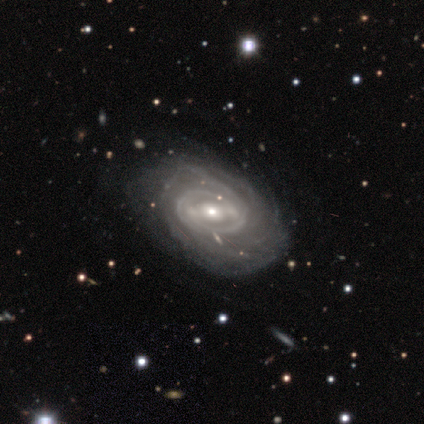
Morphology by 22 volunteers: Smooth or featured?
  - featured or disk: 73% *
  - smooth: 27%
  - star or artifact: 0%
Edge-on disk?
  - no: 100% *
  - yes: 0%
Bar?
  - strong: 44% * (tied)
  - weak: 44% * (tied)
  - no: 12%
Spiral arms?
  - yes: 100% *
  - no: 0%
Spiral winding?
  - tight: 81% *
  - medium: 19%
  - loose: 0%
Spiral arm count?
  - can't tell: 56% *
  - more than 4: 19%
  - 2: 12%
  - 4: 12%
  - 1: 0%
  - 3: 0%
Bulge size?
  - moderate: 56% *
  - small: 38%
  - large: 6%
  - dominant: 0%
  - none: 0%
Merging?
  - none: 23% *
  - minor disturbance: 14%
  - major disturbance: 9%
  - merger: 5%